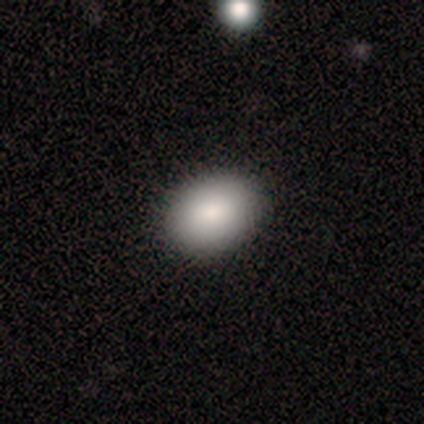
Overall: smooth (79%). How rounded: in between (64%; round 36%). Merging: none (100%).